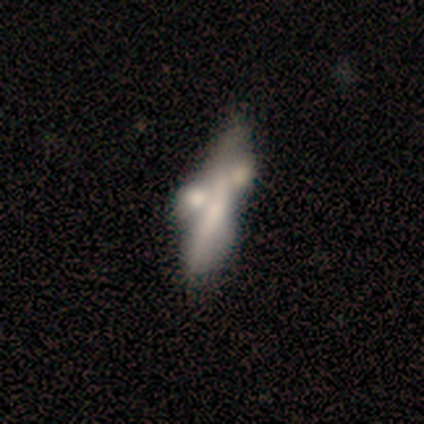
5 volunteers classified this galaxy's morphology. Overall: smooth (60%; featured or disk 40%). How rounded: in between (100%). Merging: none (40%, tied with major disturbance).